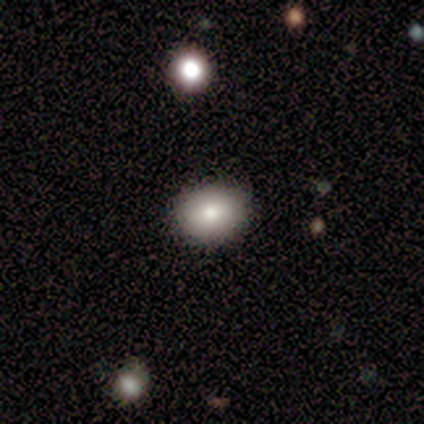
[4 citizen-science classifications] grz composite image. It shows a smooth galaxy with no disk features (75%) that is in between round and cigar-shaped (67%). Merging: none (100%).